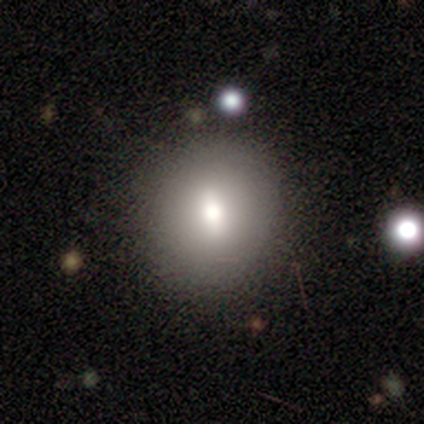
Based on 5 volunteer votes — Q: Smooth or featured?
A: smooth (80%); runner-up: featured or disk (20%)
Q: How rounded?
A: round (100%)
Q: Merging?
A: none (100%)